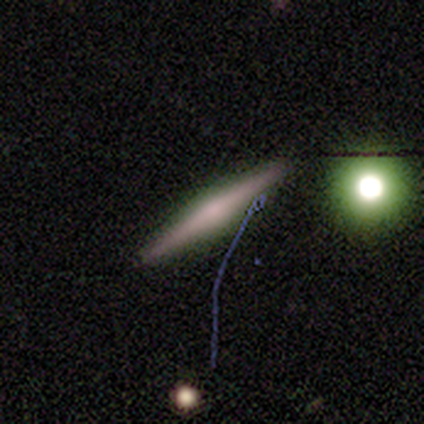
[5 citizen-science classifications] Smooth or featured? 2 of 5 (40%, tied with featured or disk) said smooth. How rounded? 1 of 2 (50%, tied with cigar-shaped) said in between. Merging? 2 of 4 (50%) said none.